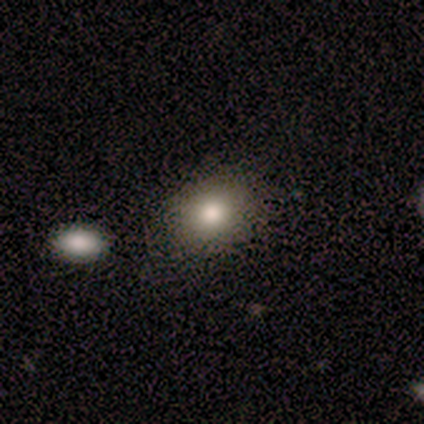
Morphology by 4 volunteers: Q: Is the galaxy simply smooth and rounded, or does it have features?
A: smooth — 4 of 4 (100%).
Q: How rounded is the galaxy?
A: round — 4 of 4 (100%).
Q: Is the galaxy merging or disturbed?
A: none — 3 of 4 (75%).